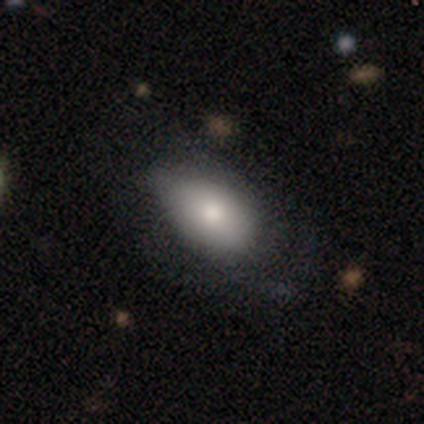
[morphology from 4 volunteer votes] This appears to be a smooth galaxy with no disk features (100%) that is in between round and cigar-shaped (100%). Merging: minor disturbance (75%).